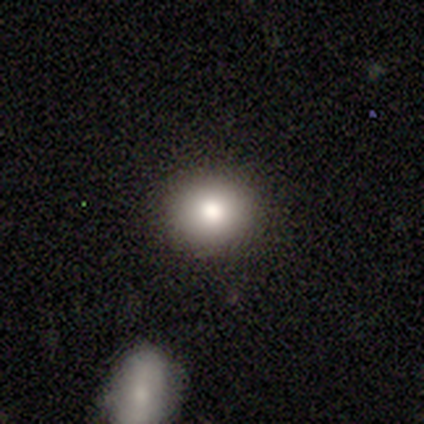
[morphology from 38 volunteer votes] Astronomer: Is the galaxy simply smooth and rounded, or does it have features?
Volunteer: smooth — 74%.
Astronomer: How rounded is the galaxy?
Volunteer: round — 64%.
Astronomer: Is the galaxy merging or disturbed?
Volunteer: none — 91%.